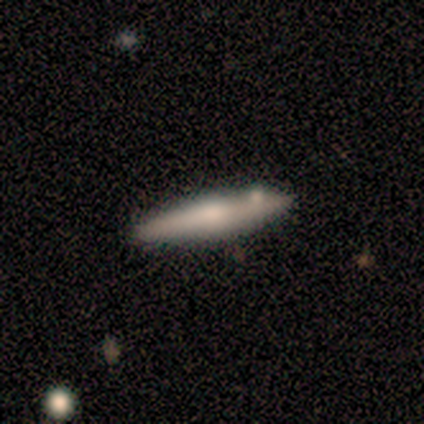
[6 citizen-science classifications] Smooth or featured? featured or disk (83%)
Edge-on disk? yes (80%)
Edge-on bulge? rounded (75%)
Merging? none (67%)